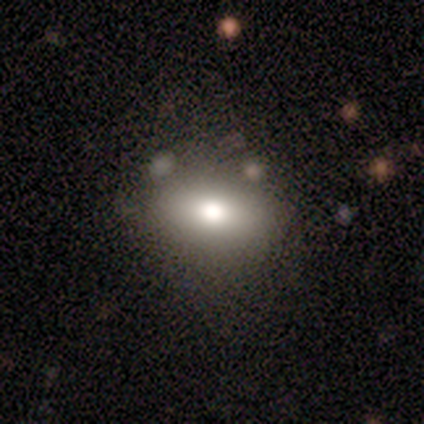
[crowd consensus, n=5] Morphology: type=smooth (80%); roundness=in between (50%); merging=none (100%).